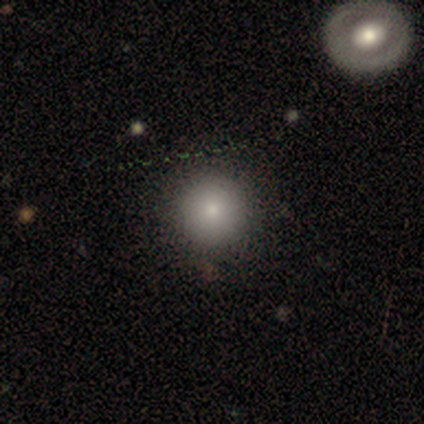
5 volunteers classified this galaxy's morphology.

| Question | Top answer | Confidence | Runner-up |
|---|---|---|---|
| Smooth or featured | featured or disk | 60% | smooth (40%) |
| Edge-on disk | no | 100% | — |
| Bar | no | 100% | — |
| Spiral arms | no | 100% | — |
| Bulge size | small | 67% | moderate (33%) |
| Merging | none | 100% | — |